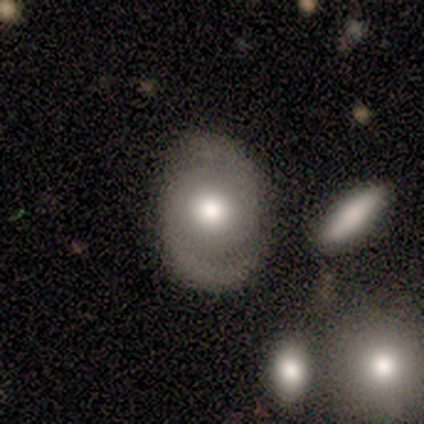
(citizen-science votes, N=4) Smooth or featured? featured or disk (100%)
Edge-on disk? no (100%)
Bar? no (100%)
Spiral arms? yes (100%)
Spiral winding? loose (50%)
Spiral arm count? 2 (75%)
Bulge size? moderate (75%)
Merging? none (100%)